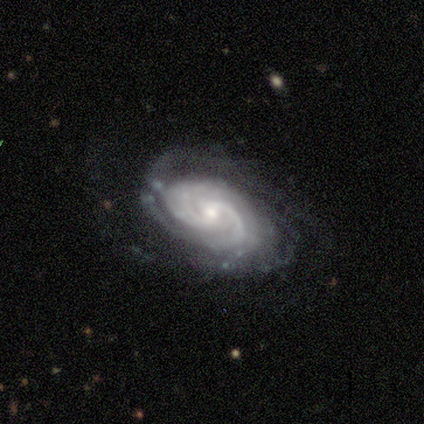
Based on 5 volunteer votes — Smooth or featured? 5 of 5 (100%) said featured or disk. Edge-on disk? 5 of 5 (100%) said no. Bar? 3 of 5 (60%) said no. Spiral arms? 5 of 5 (100%) said yes. Spiral winding? 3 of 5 (60%) said tight. Spiral arm count? 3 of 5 (60%) said can't tell. Bulge size? 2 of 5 (40%, tied with small) said moderate. Merging? 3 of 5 (60%) said minor disturbance.